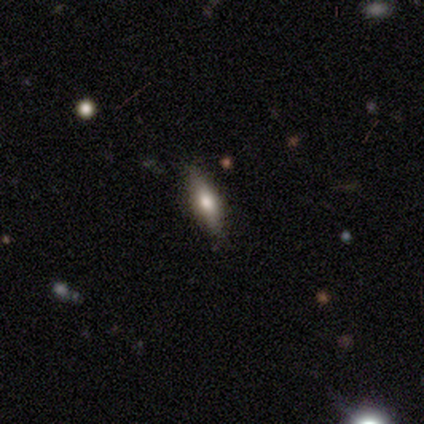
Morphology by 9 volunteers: Q: Smooth or featured?
A: smooth (56%); runner-up: featured or disk (33%)
Q: How rounded?
A: cigar-shaped (60%); runner-up: in between (40%)
Q: Merging?
A: none (75%); runner-up: minor disturbance (25%)